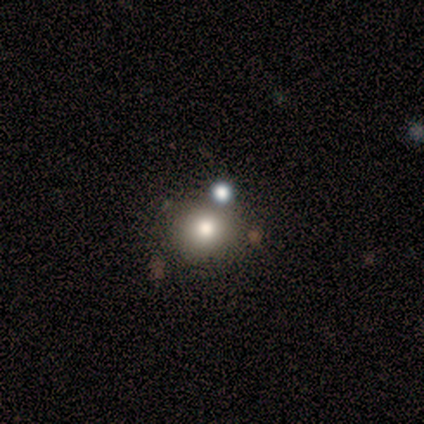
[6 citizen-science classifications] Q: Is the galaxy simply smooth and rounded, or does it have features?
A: smooth — 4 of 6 (67%).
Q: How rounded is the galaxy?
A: round — 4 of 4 (100%).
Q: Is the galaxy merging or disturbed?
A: none — 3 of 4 (75%).